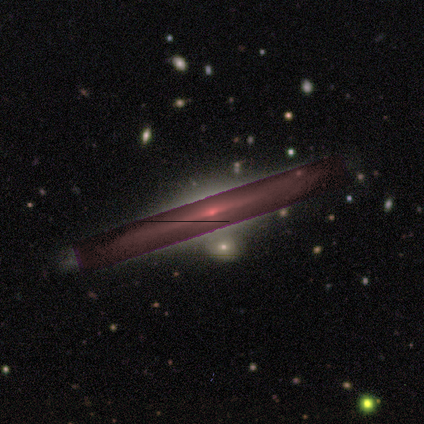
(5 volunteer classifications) Morphology: type=featured or disk (60%); edge-on=yes (100%); edge-on bulge=boxy (33%, tied with none and rounded); merging=none (67%).